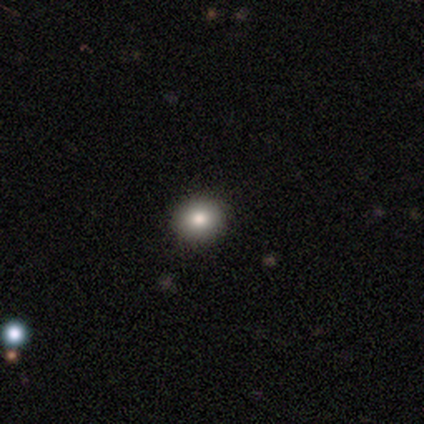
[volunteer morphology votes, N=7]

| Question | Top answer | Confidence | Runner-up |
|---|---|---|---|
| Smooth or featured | smooth | 86% | star or artifact (14%) |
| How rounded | round | 83% | in between (17%) |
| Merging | none | 100% | — |